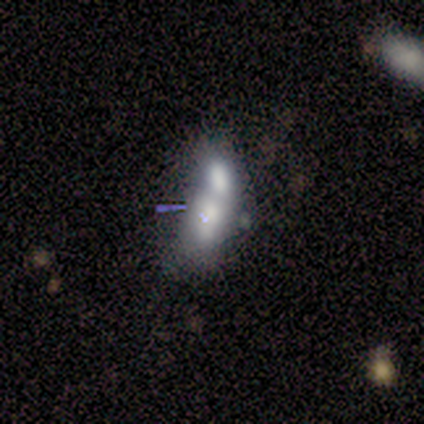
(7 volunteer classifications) Smooth or featured? smooth (57%)
How rounded? in between (50%)
Merging? merger (43%)